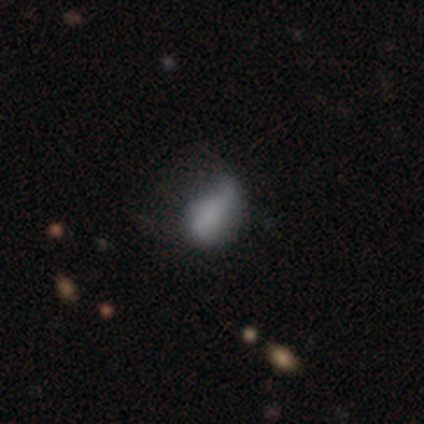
A smooth galaxy with no disk features (80%) that is round (75%). Merging: minor disturbance (60%).